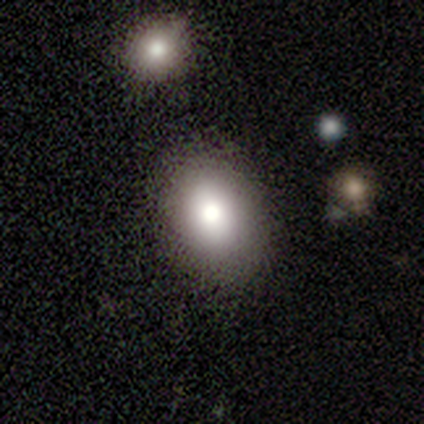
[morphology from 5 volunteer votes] Overall: smooth (100%). How rounded: in between (100%). Merging: none (100%).